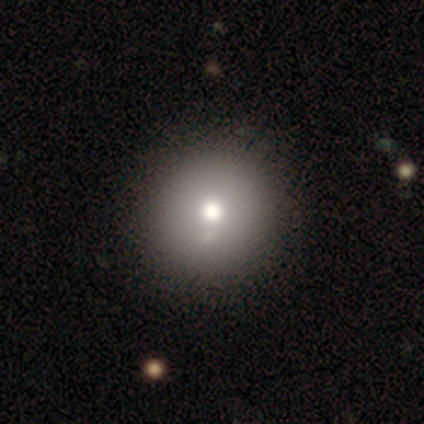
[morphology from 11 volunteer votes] smooth_or_featured: smooth (p=0.55) [alt: star or artifact p=0.36]
how_rounded: round (p=1.00)
merging: none (p=1.00)